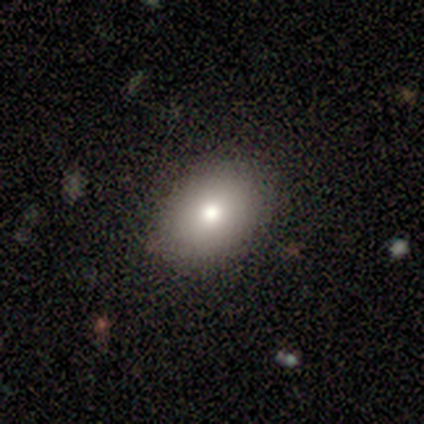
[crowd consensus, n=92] This is clearly a smooth galaxy (80%). How rounded: likely in between (73%). Merging: clearly none (89%).